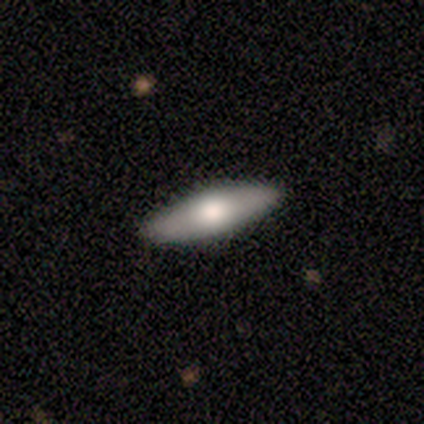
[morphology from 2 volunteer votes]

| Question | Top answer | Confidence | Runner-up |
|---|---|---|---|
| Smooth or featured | smooth | 100% | — |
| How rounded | cigar-shaped | 100% | — |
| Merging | none | 100% | — |